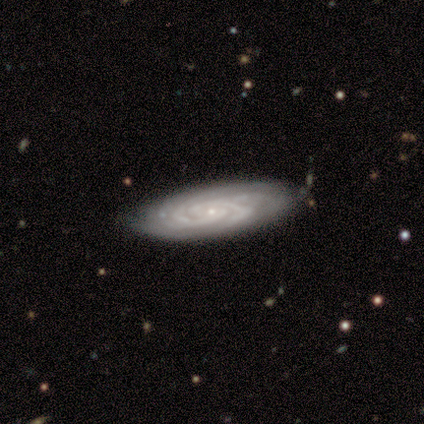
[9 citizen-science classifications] Smooth or featured?
  - featured or disk: 89% *
  - smooth: 11%
  - star or artifact: 0%
Edge-on disk?
  - no: 100% *
  - yes: 0%
Bar?
  - no: 100% *
  - strong: 0%
  - weak: 0%
Spiral arms?
  - yes: 100% *
  - no: 0%
Spiral winding?
  - tight: 100% *
  - medium: 0%
  - loose: 0%
Spiral arm count?
  - 4: 50% *
  - 2: 25%
  - can't tell: 25%
  - 1: 0%
  - 3: 0%
  - more than 4: 0%
Bulge size?
  - small: 100% *
  - dominant: 0%
  - large: 0%
  - moderate: 0%
  - none: 0%
Merging?
  - none: 78% *
  - minor disturbance: 11%
  - major disturbance: 11%
  - merger: 0%